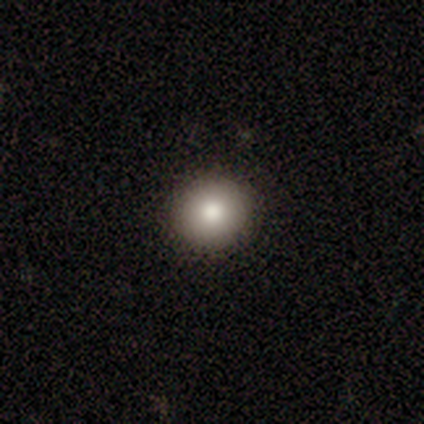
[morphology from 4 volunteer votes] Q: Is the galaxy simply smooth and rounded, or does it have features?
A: smooth — 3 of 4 (75%).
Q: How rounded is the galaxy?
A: round — 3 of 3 (100%).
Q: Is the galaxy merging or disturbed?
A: none — 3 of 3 (100%).